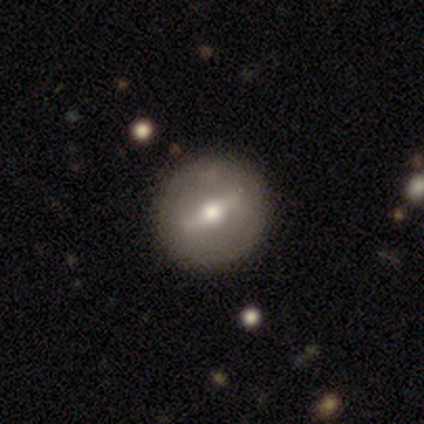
Morphology: type=featured or disk (80%); edge-on=no (100%); bar=weak (75%); spiral arms=no (100%); bulge=moderate (100%); merging=none (80%).